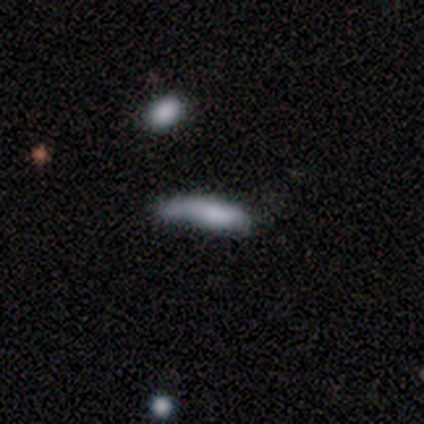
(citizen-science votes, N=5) Overall: smooth (80%). How rounded: in between (50%, tied with cigar-shaped). Merging: none (80%).